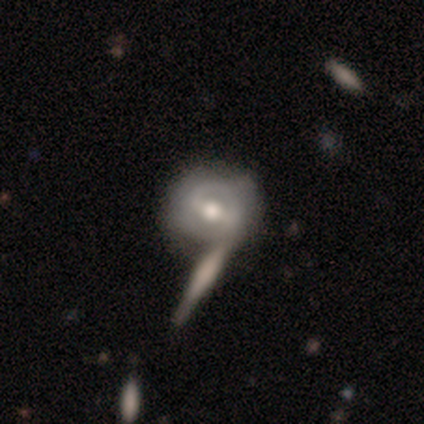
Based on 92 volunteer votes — A featured or disk galaxy (70%) with a weak bar (43%), 2 (53%) tight (53%) spiral arms (53%) and a moderate central bulge (75%). Merging: none (46%).